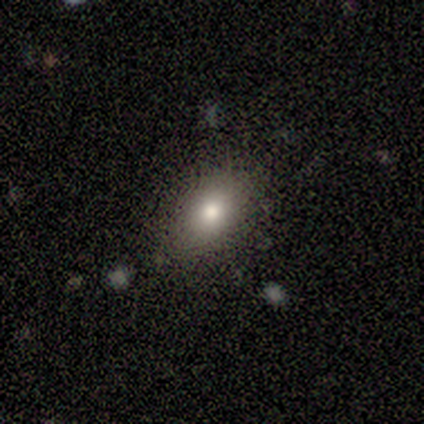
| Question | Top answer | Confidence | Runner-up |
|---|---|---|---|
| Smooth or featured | smooth | 80% | star or artifact (20%) |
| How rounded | in between | 100% | — |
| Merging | none | 75% | minor disturbance (25%) |